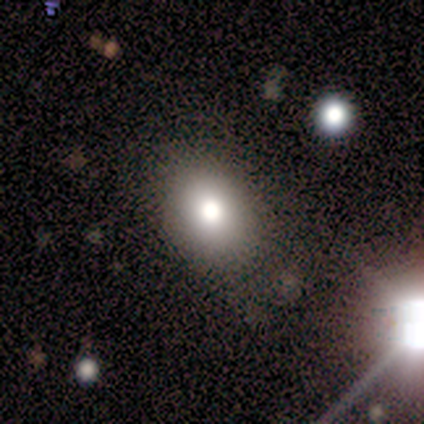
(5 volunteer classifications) This appears to be a smooth galaxy with no disk features (80%) that is in between round and cigar-shaped (75%). Merging: none (60%).